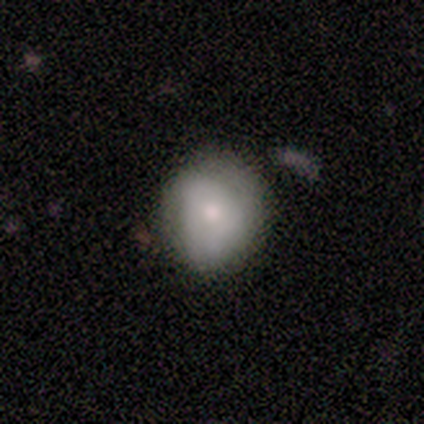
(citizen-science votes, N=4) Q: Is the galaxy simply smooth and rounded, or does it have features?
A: smooth — 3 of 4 (75%).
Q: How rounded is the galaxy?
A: round — 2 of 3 (67%).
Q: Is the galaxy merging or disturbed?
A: none — 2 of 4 (50%, tied with minor disturbance).